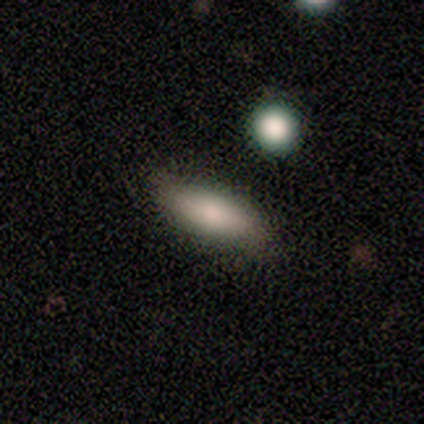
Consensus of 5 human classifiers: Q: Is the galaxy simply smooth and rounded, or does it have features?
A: smooth — 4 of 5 (80%).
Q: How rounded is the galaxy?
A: in between — 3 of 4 (75%).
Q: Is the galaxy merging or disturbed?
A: none — 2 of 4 (50%).